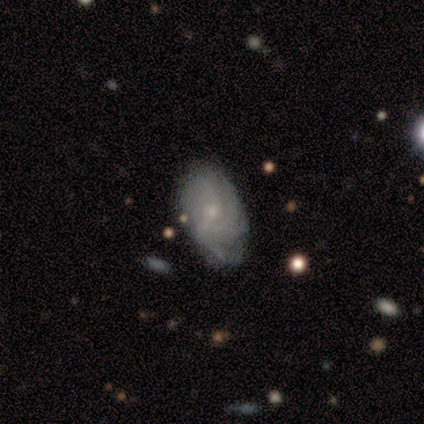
A featured or disk galaxy (91%) with no bar (78%), tight (75%) spiral arms (89%) and a small central bulge (67%).

Vote fractions:
- Smooth or featured? featured or disk: 91% / smooth: 9% / star or artifact: 0%
- Edge-on disk? no: 90% / yes: 10%
- Bar? no: 78% / weak: 22% / strong: 0%
- Spiral arms? yes: 89% / no: 11%
- Spiral winding? tight: 75% / loose: 25% / medium: 0%
- Spiral arm count? can't tell: 38% / 3: 25% / 4: 25% / 1: 12% / 2: 0% / more than 4: 0%
- Bulge size? small: 67% / moderate: 33% / dominant: 0% / large: 0% / none: 0%
- Merging? none: 82% / minor disturbance: 18% / major disturbance: 0% / merger: 0%